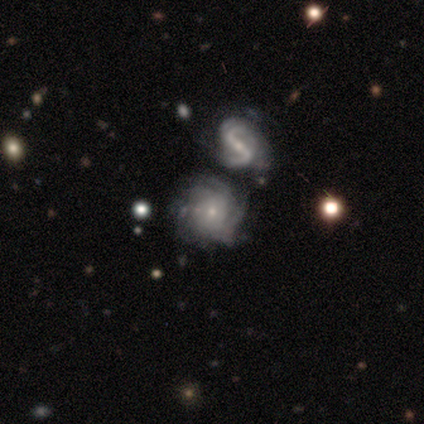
Overall: featured or disk (91%). Edge-on disk: no (96%). Bar: no (69%). Spiral arms: yes (94%). Spiral arm count: can't tell (31%; 2 25%). Spiral winding: tight (44%; medium 39%). Bulge size: small (78%). Merging: merger (39%; none 27%).